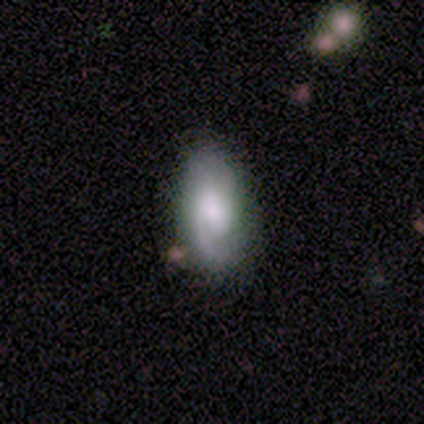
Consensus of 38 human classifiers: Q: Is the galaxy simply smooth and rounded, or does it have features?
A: featured or disk — 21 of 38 (55%).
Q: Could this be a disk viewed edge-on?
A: no — 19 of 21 (90%).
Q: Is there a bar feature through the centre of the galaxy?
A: no — 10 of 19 (53%).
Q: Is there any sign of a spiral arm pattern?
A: yes — 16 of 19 (84%).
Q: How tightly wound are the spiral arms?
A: medium — 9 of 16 (56%).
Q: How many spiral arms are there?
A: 1 — 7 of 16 (44%, tied with 2).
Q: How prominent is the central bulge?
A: moderate — 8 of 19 (42%).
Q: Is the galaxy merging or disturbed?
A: none — 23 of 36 (64%).